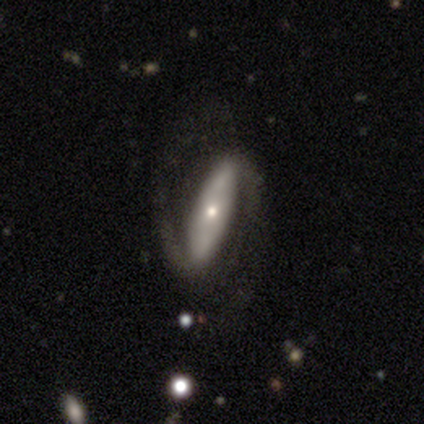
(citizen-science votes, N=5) smooth-or-featured: featured or disk: 100% | smooth: 0% | star or artifact: 0%
  disk-edge-on: no: 100% | yes: 0%
    bar: strong: 80% | weak: 20% | no: 0%
    has-spiral-arms: yes: 100% | no: 0%
      spiral-winding: tight: 40% (tied) | medium: 40% (tied) | loose: 20%
      spiral-arm-count: 2: 100% | 1: 0% | 3: 0% | 4: 0% | more than 4: 0% | can't tell: 0%
    bulge-size: small: 80% | moderate: 20% | dominant: 0% | large: 0% | none: 0%
  merging: none: 100% | minor disturbance: 0% | major disturbance: 0% | merger: 0%